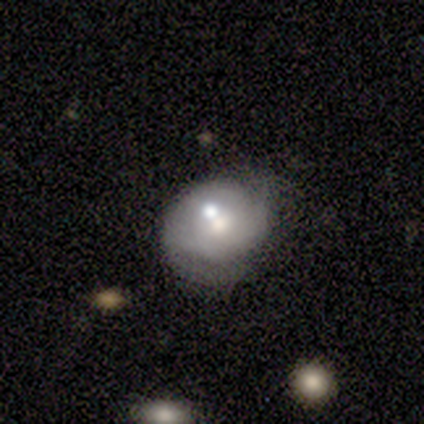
Smooth or featured: featured or disk — 78% (smooth — 22%)
Edge-on disk: no — 86% (yes — 14%)
Bar: no — 67% (weak — 33%)
Spiral arms: no — 67% (yes — 33%)
Bulge size: small — 50% (moderate — 33%)
Merging: none — 44% (minor disturbance — 22%)